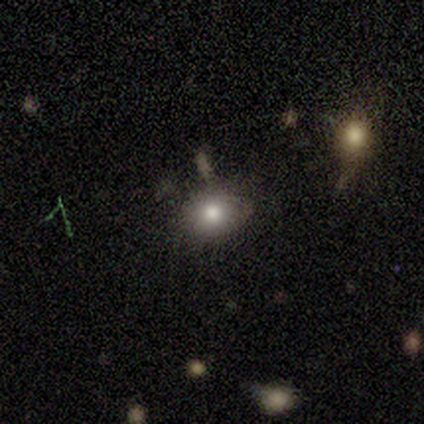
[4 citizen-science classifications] A star or artifact, not a galaxy (50%).